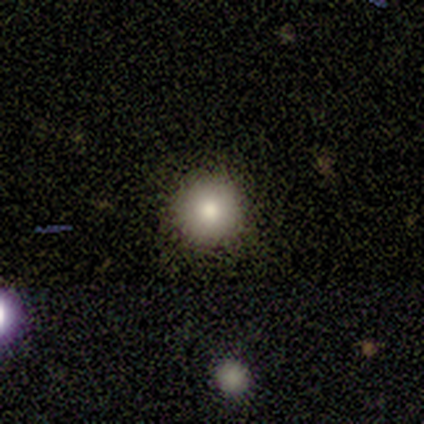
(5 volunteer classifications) Volunteers were most divided on "smooth or featured": smooth: 60%, featured or disk: 40%, star or artifact: 0%. More confident: how rounded — round (100%); merging — none (100%).